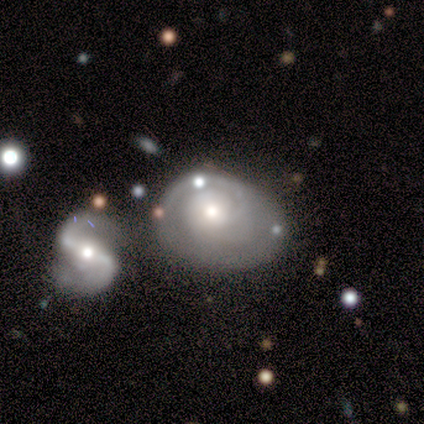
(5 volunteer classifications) Smooth or featured? featured or disk (80%)
Edge-on disk? no (100%)
Bar? no (100%)
Spiral arms? yes (100%)
Spiral winding? medium (100%)
Spiral arm count? 2 (50%)
Bulge size? moderate (75%)
Merging? none (40%, tied with merger)